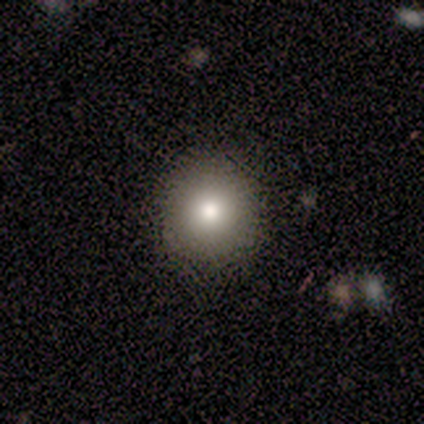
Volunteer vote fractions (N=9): Smooth or featured? 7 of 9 (78%) said smooth. How rounded? 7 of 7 (100%) said round. Merging? 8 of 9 (89%) said none.